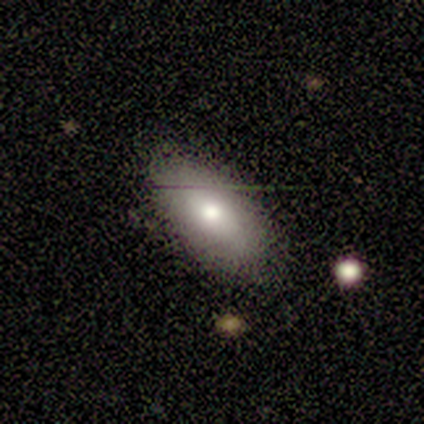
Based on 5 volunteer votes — A smooth galaxy with no disk features (60%) that is in between round and cigar-shaped (100%).

Vote fractions:
- Smooth or featured? smooth: 60% / featured or disk: 40% / star or artifact: 0%
- How rounded? in between: 100% / round: 0% / cigar-shaped: 0%
- Merging? none: 60% / minor disturbance: 40% / major disturbance: 0% / merger: 0%